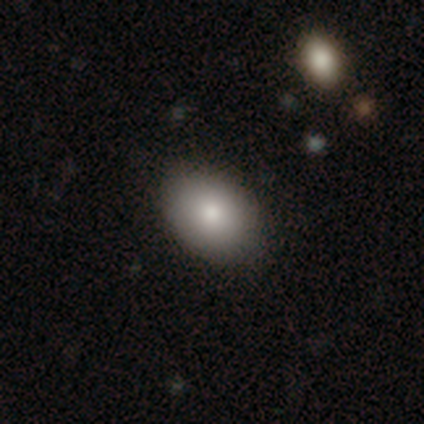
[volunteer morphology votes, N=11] A smooth galaxy with no disk features (91%) that is in between round and cigar-shaped (90%). Merging: none (82%).